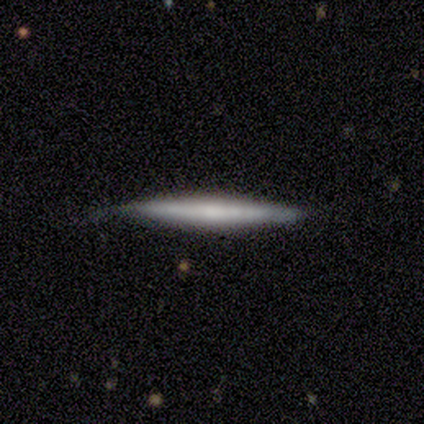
Smooth or featured: featured or disk — 60% (smooth — 20%)
Edge-on disk: yes — 100%
Edge-on bulge: none — 100%
Merging: none — 75% (minor disturbance — 25%)